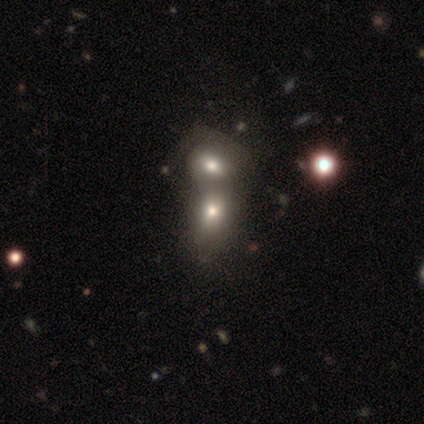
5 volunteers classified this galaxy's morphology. Smooth or featured? smooth (60%)
How rounded? in between (67%)
Merging? merger (100%)